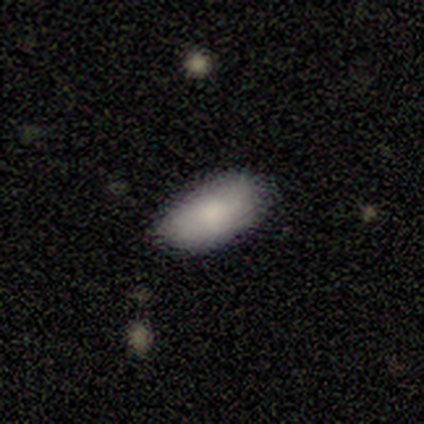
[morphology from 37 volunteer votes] Smooth or featured? smooth (76%)
How rounded? in between (100%)
Merging? none (89%)